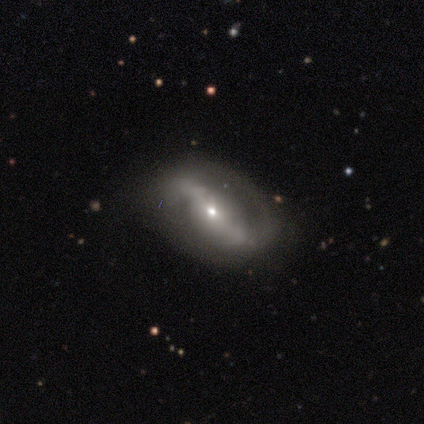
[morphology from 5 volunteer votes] featured or disk 80%, smooth 20%, star or artifact 0%. Down the decision tree: edge-on disk — no (75%); bar — weak (67%); spiral arms — yes (100%); spiral arm count — 2 (67%); spiral winding — loose (67%); bulge size — small (100%); merging — none (40%, tied with major disturbance).